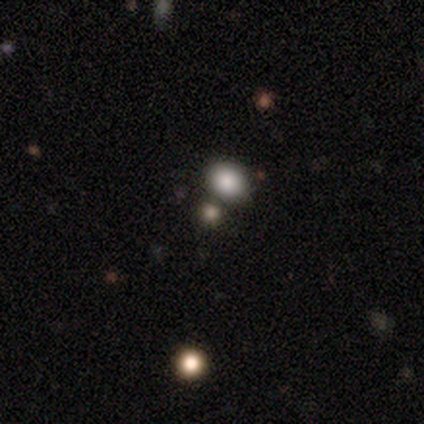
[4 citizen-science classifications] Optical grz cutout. It shows a smooth galaxy with no disk features (75%) that is round (100%). Merging: none (100%).